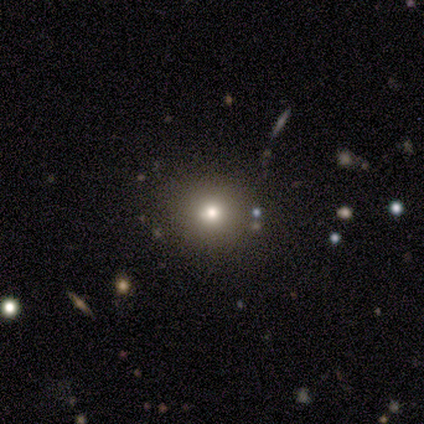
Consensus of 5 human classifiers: Q: Smooth or featured?
A: smooth (40%); tied with: star or artifact (40%)
Q: How rounded?
A: round (100%)
Q: Merging?
A: none (100%)